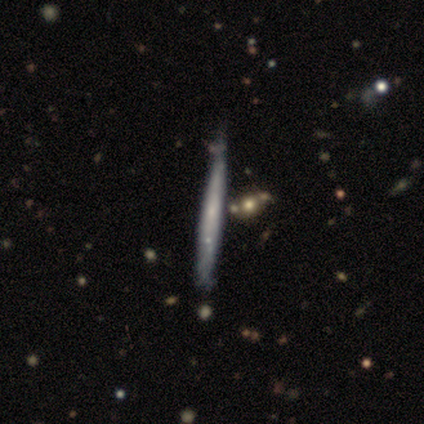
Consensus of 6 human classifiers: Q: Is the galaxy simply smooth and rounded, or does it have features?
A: smooth — 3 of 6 (50%, tied with featured or disk).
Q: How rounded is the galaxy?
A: cigar-shaped — 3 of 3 (100%).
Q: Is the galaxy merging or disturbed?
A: none — 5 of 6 (83%).